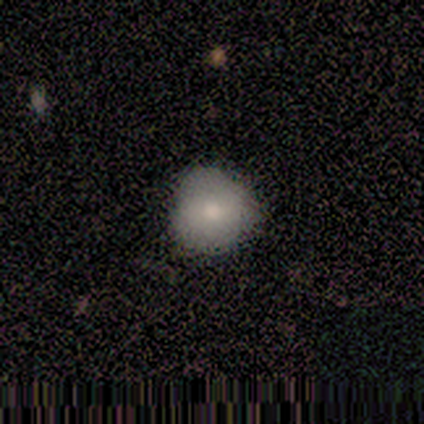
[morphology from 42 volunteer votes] smooth_or_featured: smooth (p=0.71) [alt: featured or disk p=0.26]
how_rounded: round (p=0.97) [alt: in between p=0.03]
merging: none (p=0.83) [alt: minor disturbance p=0.12]